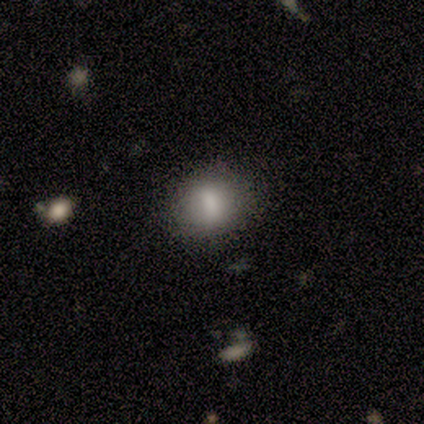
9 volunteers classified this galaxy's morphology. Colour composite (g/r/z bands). It shows a smooth galaxy with no disk features (78%) that is in between round and cigar-shaped (71%). Merging: none (67%).